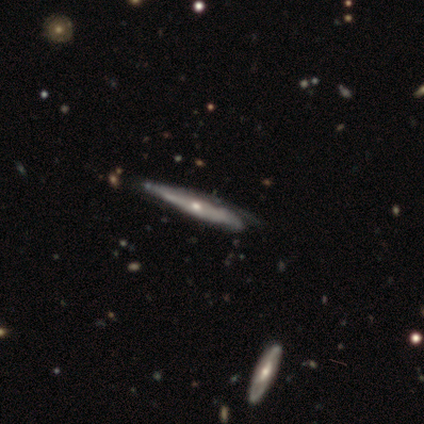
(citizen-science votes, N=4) Smooth or featured: featured or disk — 75% (smooth — 25%)
Edge-on disk: no — 67% (yes — 33%)
Bar: no — 100%
Spiral arms: yes — 100%
Spiral winding: tight — 50% (tied with medium — 50%)
Spiral arm count: 1 — 50% (tied with can't tell — 50%)
Bulge size: moderate — 50% (tied with small — 50%)
Merging: none — 75% (minor disturbance — 25%)